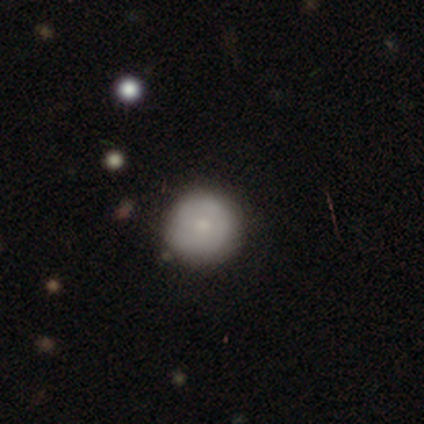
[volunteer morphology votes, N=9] Smooth or featured: smooth — 89% (featured or disk — 11%)
How rounded: round — 100%
Merging: none — 89% (minor disturbance — 11%)